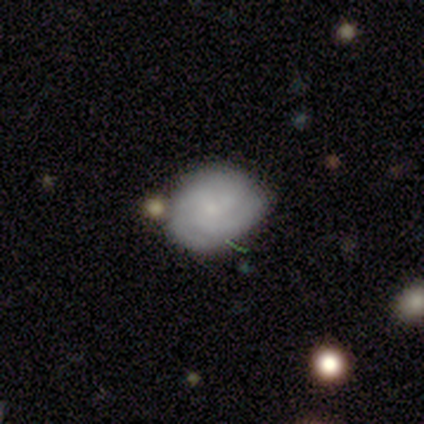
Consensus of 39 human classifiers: A featured or disk galaxy (54%) with no bar (81%), 3 (41%) medium (53%) spiral arms (81%) and a small central bulge (71%). Merging: none (64%).